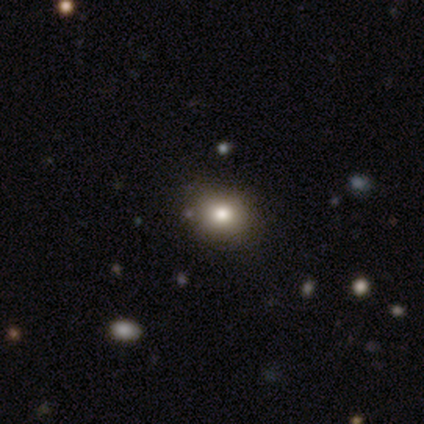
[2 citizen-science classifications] Smooth or featured? 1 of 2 (50%, tied with featured or disk) said smooth. How rounded? 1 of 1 (100%) said round. Merging? 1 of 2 (50%, tied with major disturbance) said none.